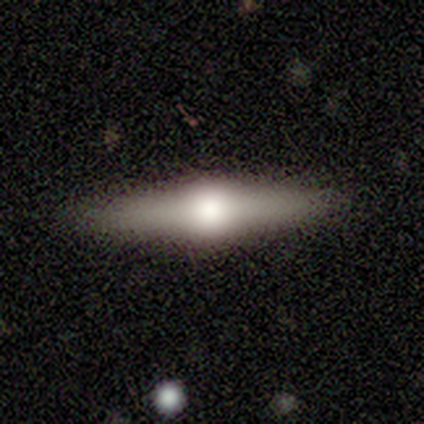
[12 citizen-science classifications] featured or disk 50%, smooth 42%, star or artifact 8%. Down the decision tree: edge-on disk — yes (83%); edge-on bulge — rounded (100%); merging — none (91%).